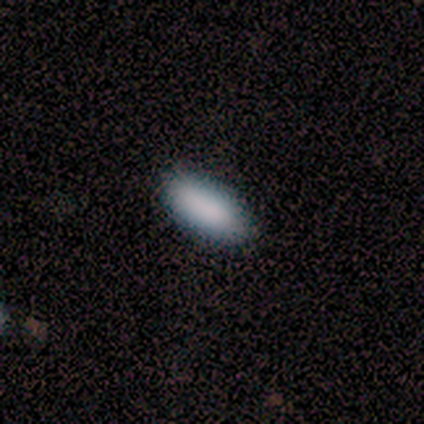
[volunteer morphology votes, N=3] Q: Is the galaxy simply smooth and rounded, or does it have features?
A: smooth — 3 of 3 (100%).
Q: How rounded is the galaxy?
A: in between — 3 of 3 (100%).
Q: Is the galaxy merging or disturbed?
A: none — 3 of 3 (100%).